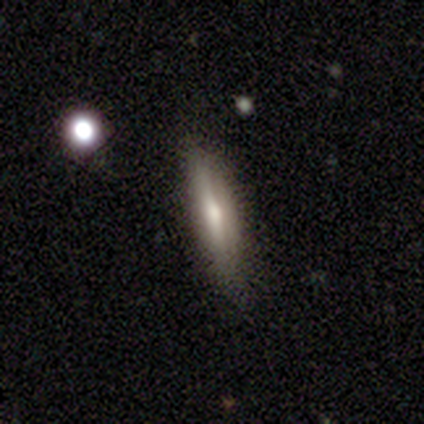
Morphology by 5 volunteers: Smooth or featured: smooth — 60% (featured or disk — 40%)
How rounded: cigar-shaped — 100%
Merging: none — 60% (minor disturbance — 40%)